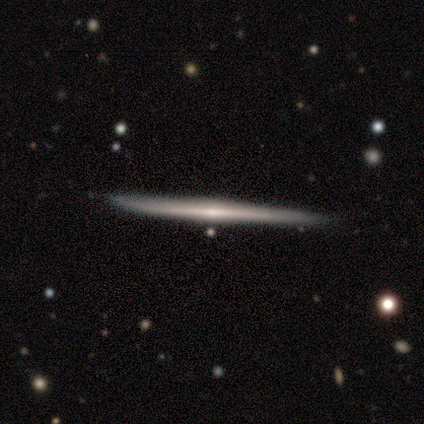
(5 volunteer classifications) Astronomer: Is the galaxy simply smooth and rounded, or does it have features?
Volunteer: featured or disk — 80%.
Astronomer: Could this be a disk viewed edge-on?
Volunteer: yes — 100%.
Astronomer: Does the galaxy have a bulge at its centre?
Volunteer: none — 50%, tied with rounded at 50%.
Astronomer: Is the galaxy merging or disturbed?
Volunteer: none — 100%.